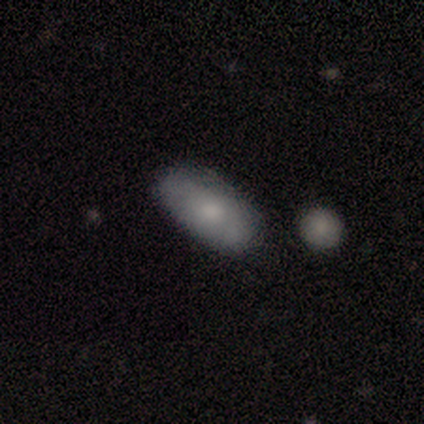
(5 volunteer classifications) This appears to be a smooth galaxy with no disk features (100%) that is in between round and cigar-shaped (100%). Merging: none (100%).